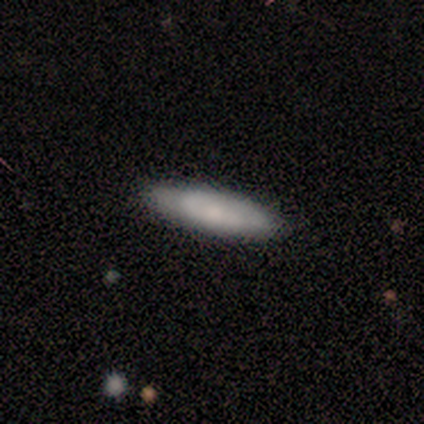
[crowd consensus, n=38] Smooth or featured? 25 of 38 (66%) said smooth. How rounded? 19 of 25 (76%) said cigar-shaped. Merging? 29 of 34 (85%) said none.